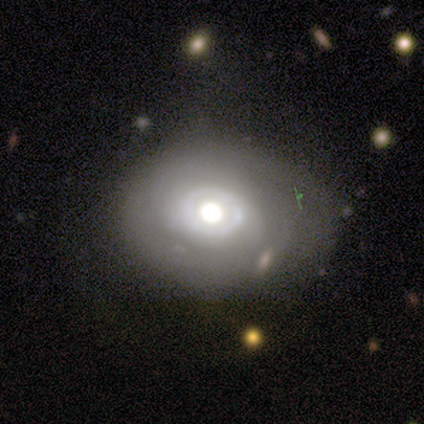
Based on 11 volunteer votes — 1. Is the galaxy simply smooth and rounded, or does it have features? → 64% smooth, 36% featured or disk, 0% star or artifact.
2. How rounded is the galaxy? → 71% round, 29% in between, 0% cigar-shaped.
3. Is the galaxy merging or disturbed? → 45% none (tied), 45% minor disturbance (tied), 9% major disturbance, 0% merger.